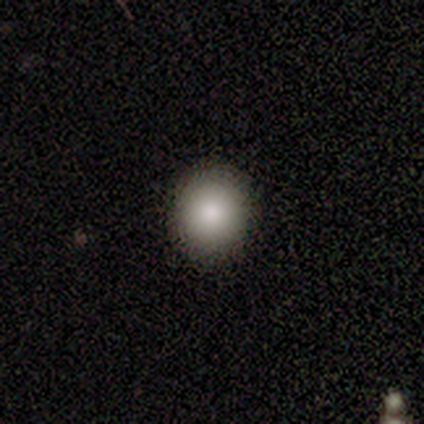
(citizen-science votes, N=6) Smooth or featured: smooth — 83% (featured or disk — 17%)
How rounded: round — 100%
Merging: none — 100%